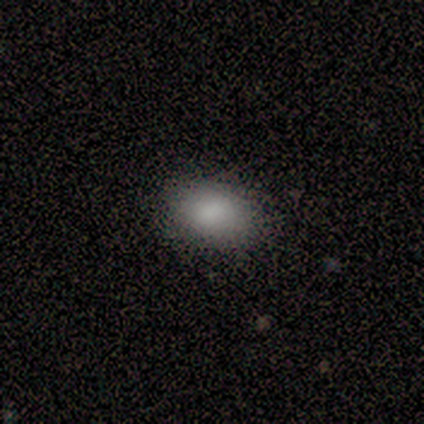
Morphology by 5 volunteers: smooth 100%, featured or disk 0%, star or artifact 0%. Down the decision tree: how rounded — in between (100%); merging — none (100%).